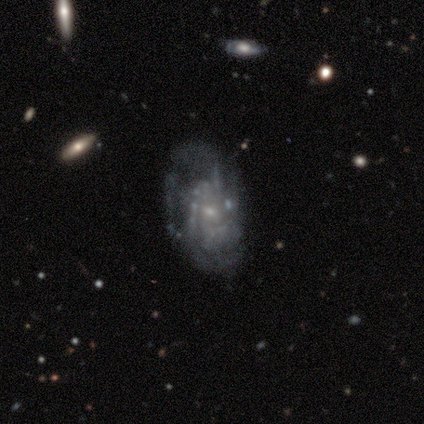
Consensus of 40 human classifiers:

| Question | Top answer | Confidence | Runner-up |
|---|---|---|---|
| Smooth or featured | featured or disk | 85% | smooth (10%) |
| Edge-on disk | no | 94% | yes (6%) |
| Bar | no | 69% | weak (31%) |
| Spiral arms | yes | 72% | no (28%) |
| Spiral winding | tight | 61% | medium (26%) |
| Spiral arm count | can't tell | 52% | 3 (26%) |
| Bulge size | small | 72% | moderate (19%) |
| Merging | none | 37% | tied: major disturbance (37%) |